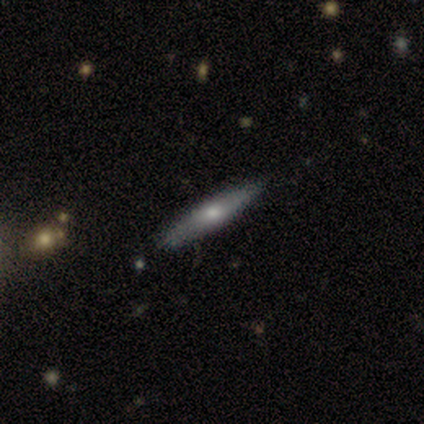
Smooth or featured: smooth — 50% (featured or disk — 47%)
How rounded: cigar-shaped — 89% (in between — 11%)
Merging: none — 89% (minor disturbance — 11%)